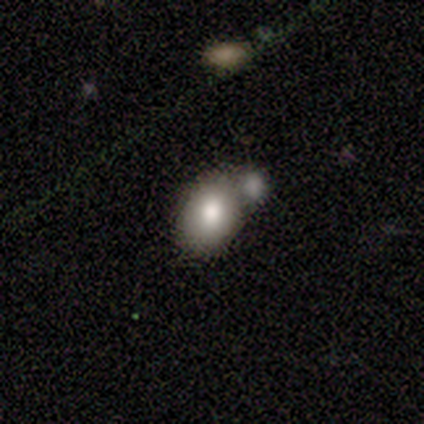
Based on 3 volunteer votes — Smooth or featured: smooth — 67% (featured or disk — 33%)
How rounded: in between — 100%
Merging: none — 67% (merger — 33%)